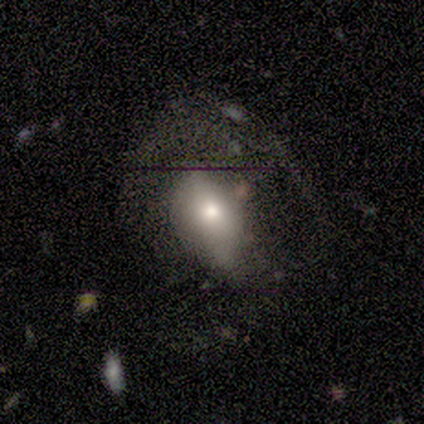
This is likely a featured or disk galaxy (60%). It is clearly not viewed edge-on (100%). Bar: likely strong (67%). Spiral arm pattern: clearly no (100%). Central bulge: likely small (67%). Merging: marginally none (40%, tied with major disturbance).